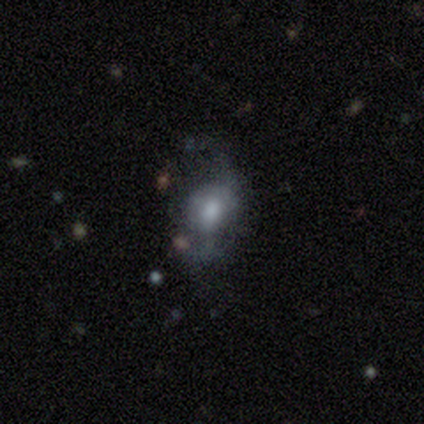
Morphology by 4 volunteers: Q: Smooth or featured?
A: featured or disk (75%); runner-up: smooth (25%)
Q: Edge-on disk?
A: no (100%)
Q: Bar?
A: no (67%); runner-up: weak (33%)
Q: Spiral arms?
A: no (67%); runner-up: yes (33%)
Q: Bulge size?
A: small (67%); runner-up: moderate (33%)
Q: Merging?
A: major disturbance (75%); runner-up: none (25%)